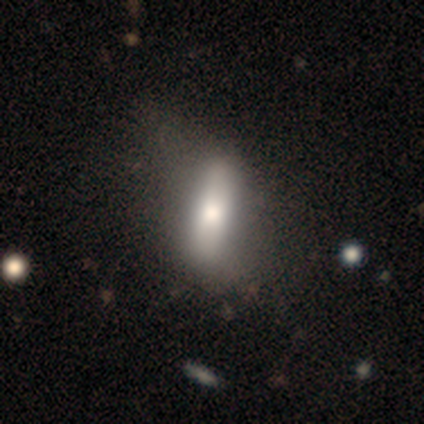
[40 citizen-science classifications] smooth_or_featured: smooth (p=0.65) [alt: featured or disk p=0.35]
how_rounded: cigar-shaped (p=0.54) [alt: in between p=0.42]
merging: none (p=0.25) [alt: major disturbance p=0.23]